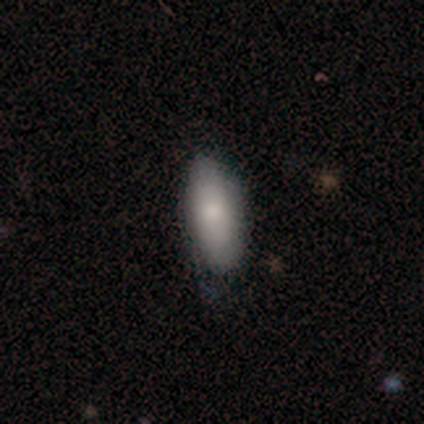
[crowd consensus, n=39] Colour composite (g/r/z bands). It shows a smooth galaxy with no disk features (79%) that is in between round and cigar-shaped (81%). Merging: none (71%).